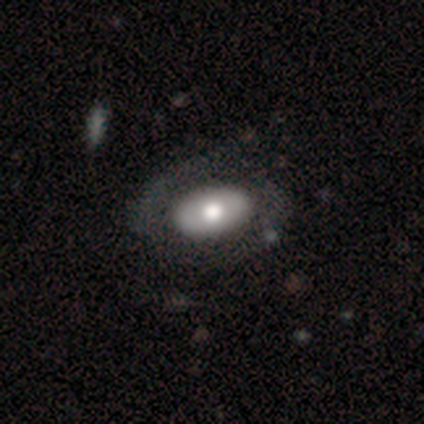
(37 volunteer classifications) featured or disk 51%, smooth 49%, star or artifact 0%. Down the decision tree: edge-on disk — no (84%); bar — no (81%); spiral arms — no (62%); bulge size — moderate (69%); merging — none (57%).